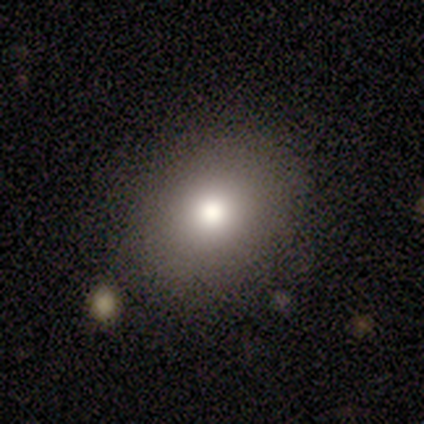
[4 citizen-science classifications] Smooth or featured: smooth — 100%
How rounded: round — 50% (tied with in between — 50%)
Merging: none — 75% (minor disturbance — 25%)